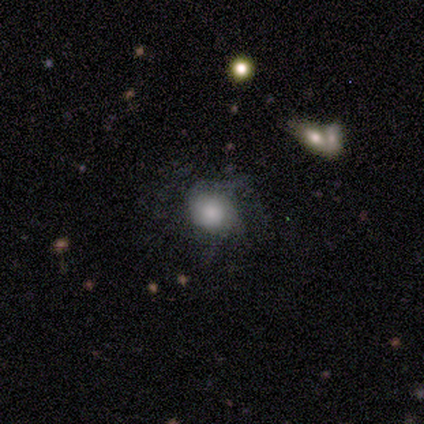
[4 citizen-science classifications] This appears to be a featured or disk galaxy (75%) with no bar (100%), 1 (50%, tied with can't tell) medium (50%, tied with loose) spiral arms (67%) and a large central bulge (100%). Merging: none (50%, tied with major disturbance).